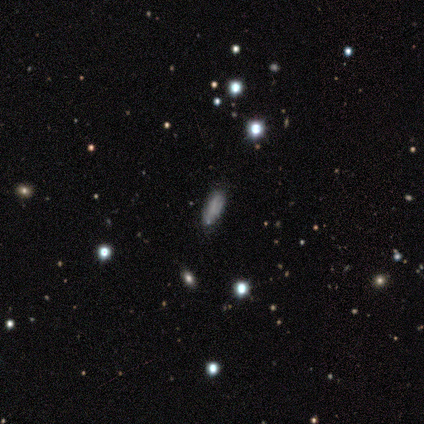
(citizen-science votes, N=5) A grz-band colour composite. It shows a smooth galaxy with no disk features (80%) that is in between round and cigar-shaped (75%). Merging: none (60%).